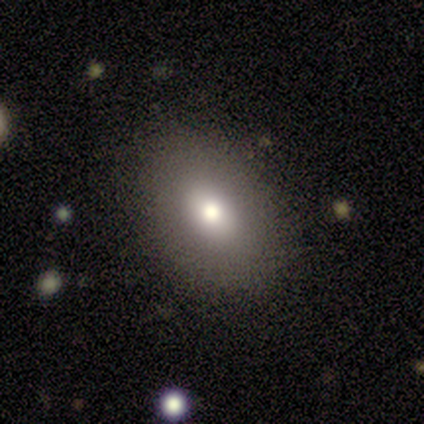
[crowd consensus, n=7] smooth_or_featured: smooth (p=0.86) [alt: featured or disk p=0.14]
how_rounded: in between (p=0.67) [alt: round p=0.17]
merging: none (p=0.71) [alt: minor disturbance p=0.29]